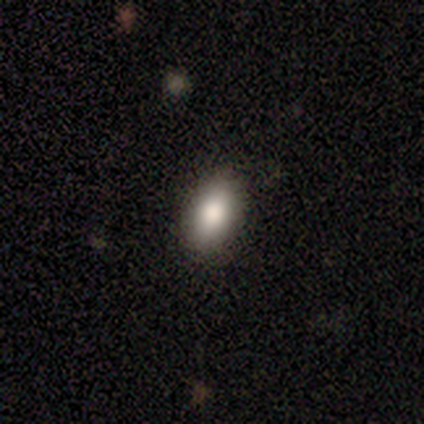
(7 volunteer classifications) Smooth or featured: smooth — 86% (star or artifact — 14%)
How rounded: in between — 83% (round — 17%)
Merging: none — 100%